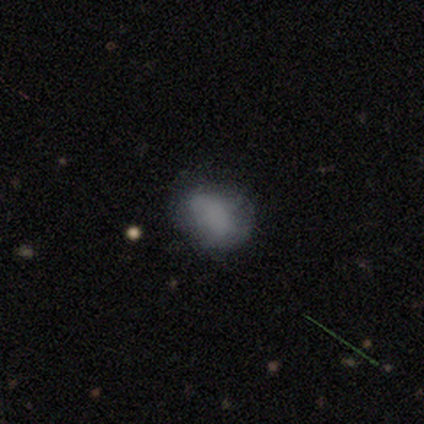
A smooth galaxy with no disk features (60%) that is in between round and cigar-shaped (100%). Merging: major disturbance (50%).